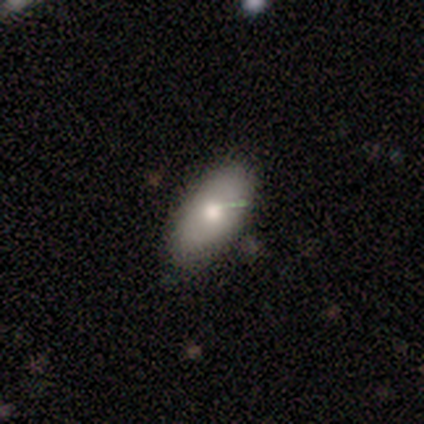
A smooth galaxy with no disk features (100%) that is in between round and cigar-shaped (100%).

Vote fractions:
- Smooth or featured? smooth: 100% / featured or disk: 0% / star or artifact: 0%
- How rounded? in between: 100% / round: 0% / cigar-shaped: 0%
- Merging? none: 100% / minor disturbance: 0% / major disturbance: 0% / merger: 0%